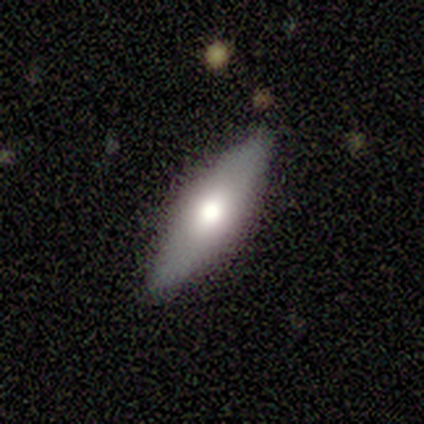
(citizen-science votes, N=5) A smooth galaxy with no disk features (40%, tied with featured or disk) that is in between round and cigar-shaped (50%, tied with cigar-shaped).

Vote fractions:
- Smooth or featured? smooth: 40% (tied) / featured or disk: 40% (tied) / star or artifact: 20%
- How rounded? in between: 50% (tied) / cigar-shaped: 50% (tied) / round: 0%
- Merging? none: 100% / minor disturbance: 0% / major disturbance: 0% / merger: 0%